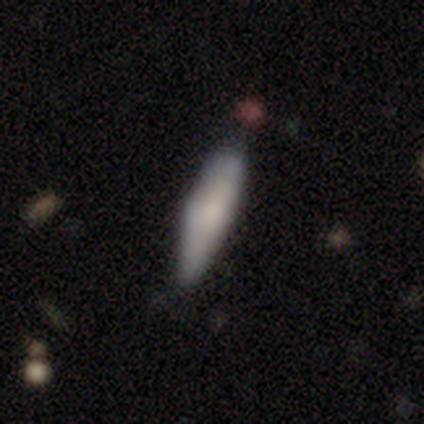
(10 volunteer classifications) This appears to be a smooth galaxy with no disk features (70%) that is cigar-shaped (71%). Merging: none (70%).